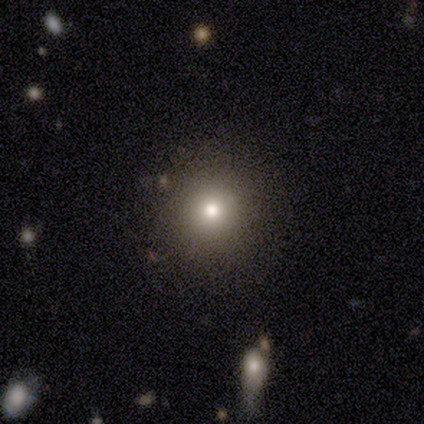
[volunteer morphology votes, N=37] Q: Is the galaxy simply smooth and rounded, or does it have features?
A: smooth — 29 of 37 (78%).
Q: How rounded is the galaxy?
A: round — 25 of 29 (86%).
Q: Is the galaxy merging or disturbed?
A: none — 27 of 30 (90%).